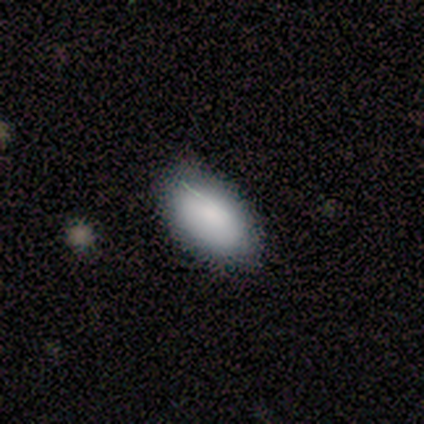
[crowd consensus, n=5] Overall: smooth (80%). How rounded: in between (100%). Merging: none (100%).